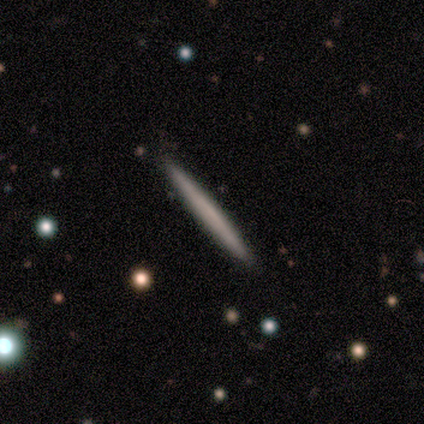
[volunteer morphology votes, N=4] smooth-or-featured: smooth: 75% | featured or disk: 25% | star or artifact: 0%
  how-rounded: cigar-shaped: 100% | round: 0% | in between: 0%
  merging: none: 100% | minor disturbance: 0% | major disturbance: 0% | merger: 0%